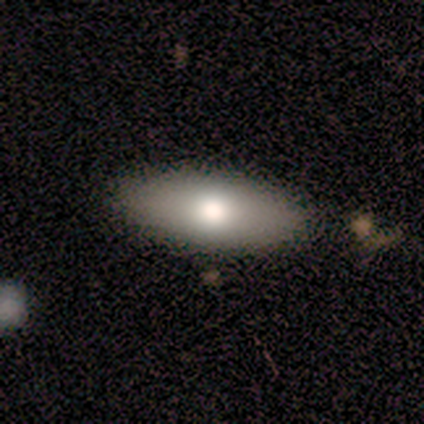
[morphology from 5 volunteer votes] type=smooth (100%); roundness=in between (100%); merging=none (80%).